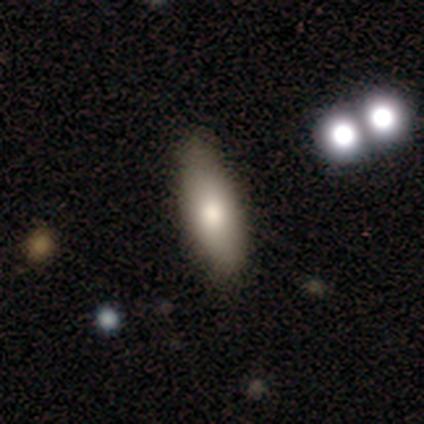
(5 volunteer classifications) Smooth or featured? 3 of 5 (60%) said featured or disk. Edge-on disk? 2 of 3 (67%) said yes. Edge-on bulge? 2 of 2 (100%) said rounded. Merging? 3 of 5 (60%) said none.